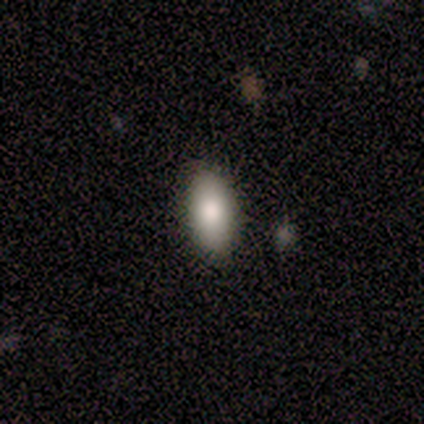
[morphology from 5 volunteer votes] Smooth or featured: smooth — 100%
How rounded: in between — 100%
Merging: none — 80% (minor disturbance — 20%)